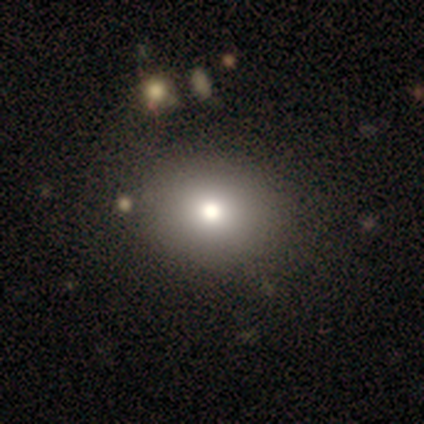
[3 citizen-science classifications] smooth 67%, featured or disk 33%, star or artifact 0%. Down the decision tree: how rounded — round (100%); merging — none (33%, tied with minor disturbance and major disturbance).